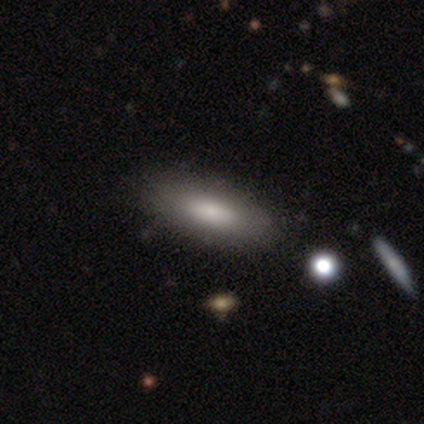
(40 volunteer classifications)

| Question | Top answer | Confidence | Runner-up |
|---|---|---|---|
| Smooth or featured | smooth | 75% | featured or disk (22%) |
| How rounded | in between | 83% | cigar-shaped (10%) |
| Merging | none | 64% | merger (8%) |